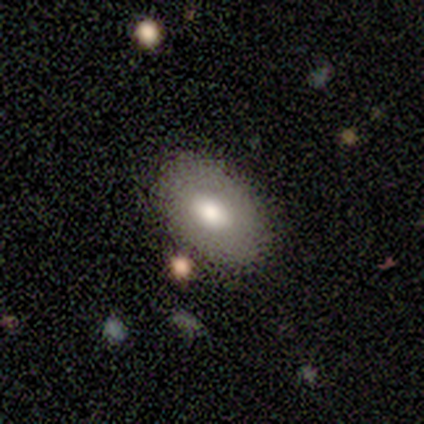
Overall: smooth (50%, tied with featured or disk). How rounded: in between (100%). Merging: none (75%).